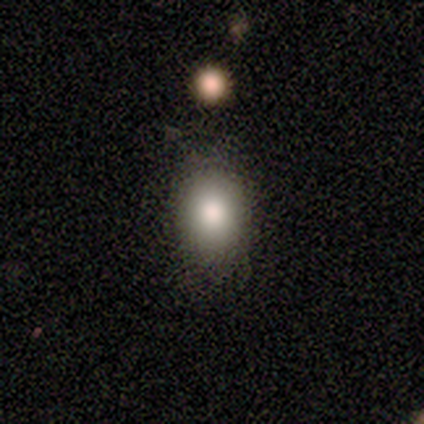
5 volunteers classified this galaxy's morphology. Q: Smooth or featured?
A: smooth (100%)
Q: How rounded?
A: in between (60%); runner-up: round (40%)
Q: Merging?
A: none (100%)